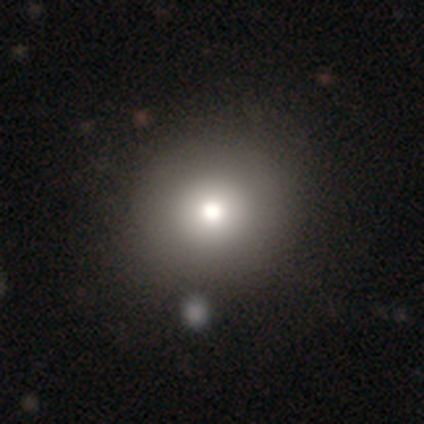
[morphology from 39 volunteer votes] Q: Smooth or featured?
A: smooth (74%); runner-up: star or artifact (15%)
Q: How rounded?
A: round (93%); runner-up: in between (7%)
Q: Merging?
A: none (42%); runner-up: merger (12%)